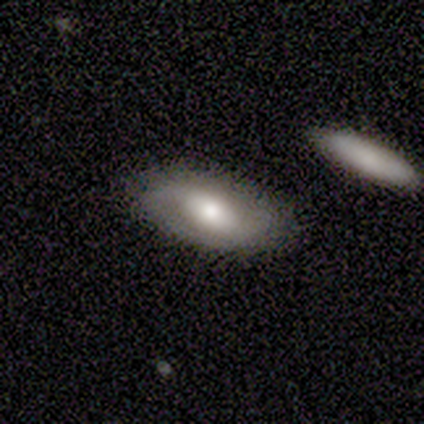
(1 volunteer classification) Q: Smooth or featured?
A: smooth (100%)
Q: How rounded?
A: in between (100%)
Q: Merging?
A: none (100%)